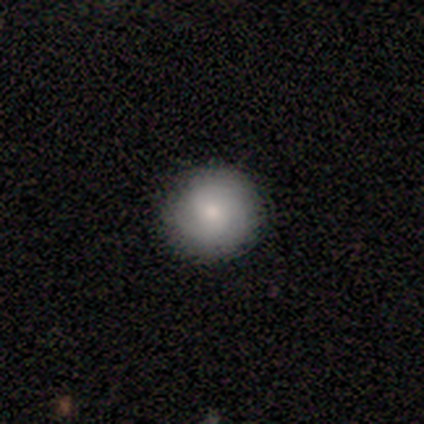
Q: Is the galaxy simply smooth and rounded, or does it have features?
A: smooth — 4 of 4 (100%).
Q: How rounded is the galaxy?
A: round — 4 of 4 (100%).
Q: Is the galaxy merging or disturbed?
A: none — 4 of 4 (100%).